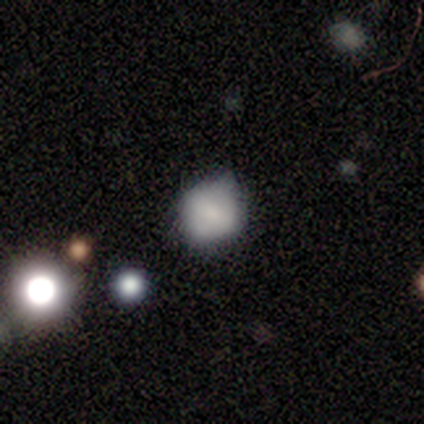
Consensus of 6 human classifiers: smooth 50%, featured or disk 33%, star or artifact 17%. Down the decision tree: how rounded — round (67%); merging — none (80%).